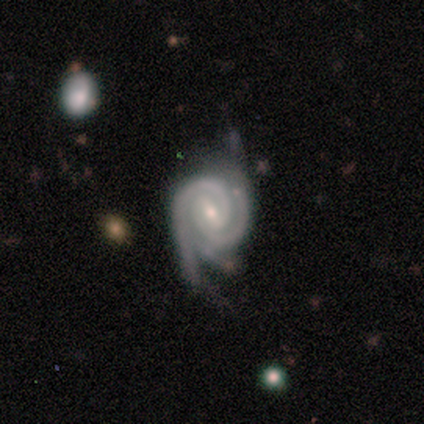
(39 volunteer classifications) featured or disk 97%, smooth 3%, star or artifact 0%. Down the decision tree: edge-on disk — no (100%); bar — weak (79%); spiral arms — yes (100%); spiral arm count — 2 (53%); spiral winding — tight (79%); bulge size — small (76%); merging — none (44%).